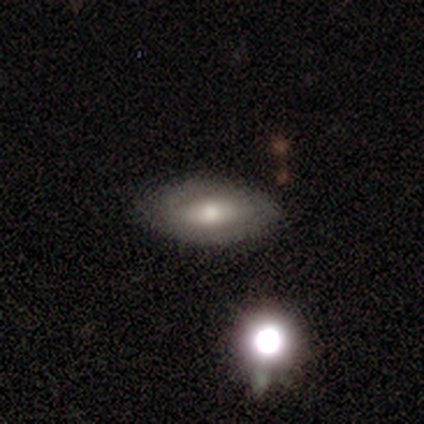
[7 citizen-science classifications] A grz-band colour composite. It shows a smooth galaxy with no disk features (57%) that is in between round and cigar-shaped (100%). Merging: none (86%).